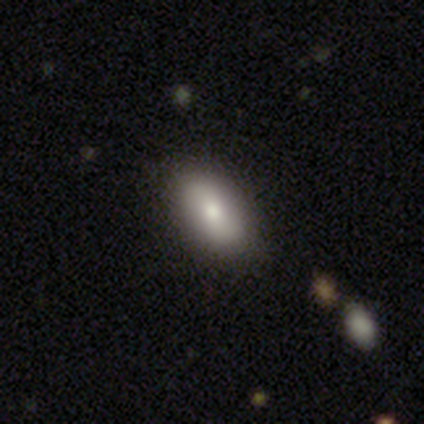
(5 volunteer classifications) Morphology: type=smooth (60%); roundness=in between (100%); merging=none (80%).